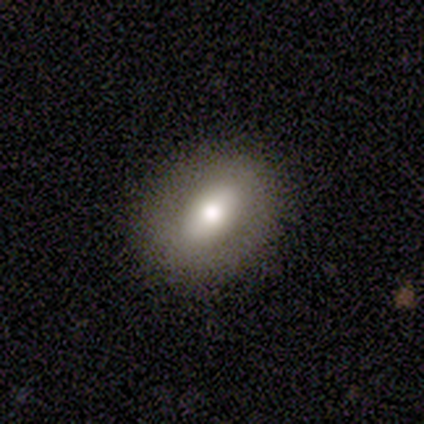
Smooth or featured? 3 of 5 (60%) said smooth. How rounded? 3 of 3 (100%) said in between. Merging? 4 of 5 (80%) said none.